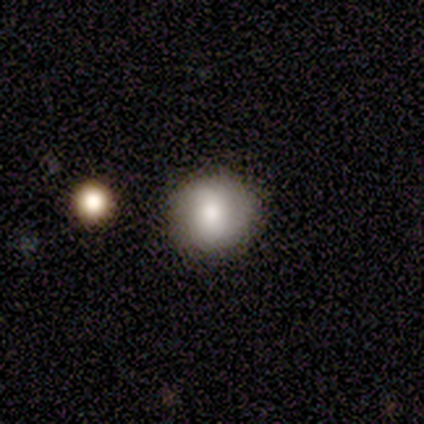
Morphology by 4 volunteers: Volunteers were most divided on "smooth or featured": smooth: 50%, featured or disk: 25%, star or artifact: 25%. More confident: how rounded — round (100%); merging — none (100%).